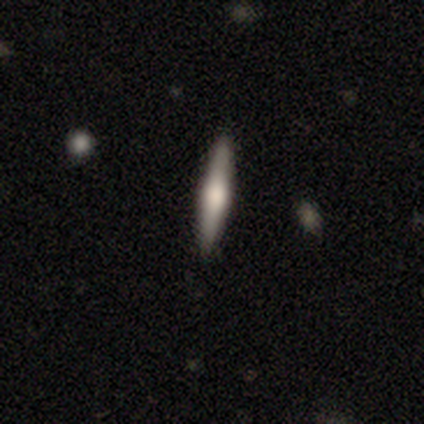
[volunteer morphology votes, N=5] Smooth or featured? featured or disk (60%)
Edge-on disk? yes (100%)
Edge-on bulge? rounded (100%)
Merging? none (100%)